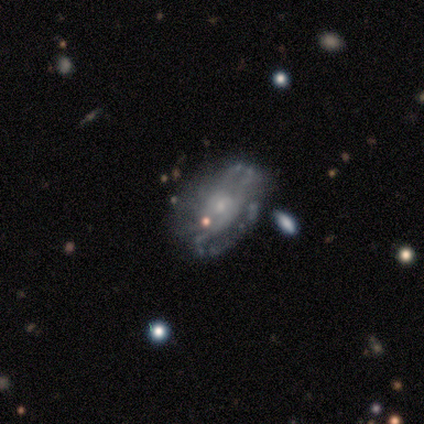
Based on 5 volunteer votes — Smooth or featured? 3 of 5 (60%) said featured or disk. Edge-on disk? 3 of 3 (100%) said no. Bar? 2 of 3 (67%) said no. Spiral arms? 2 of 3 (67%) said yes. Spiral winding? 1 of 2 (50%, tied with loose) said tight. Spiral arm count? 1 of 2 (50%, tied with can't tell) said 4. Bulge size? 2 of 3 (67%) said small. Merging? 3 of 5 (60%) said none.